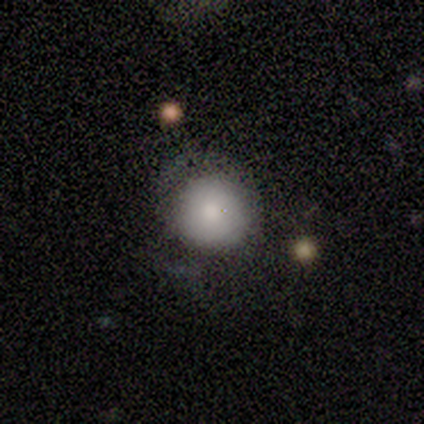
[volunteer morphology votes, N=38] Overall: smooth (76%). How rounded: round (86%). Merging: none (59%; minor disturbance 22%).